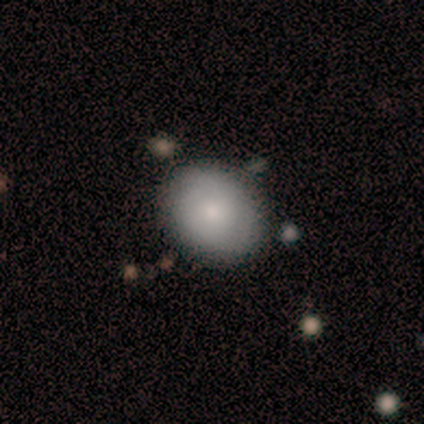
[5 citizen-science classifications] Volunteers were most divided on "smooth or featured": featured or disk: 60%, smooth: 40%, star or artifact: 0%. More confident: edge-on disk — no (100%); bar — no (100%); merging — none (100%); spiral arms — no (67%); bulge size — small (67%).